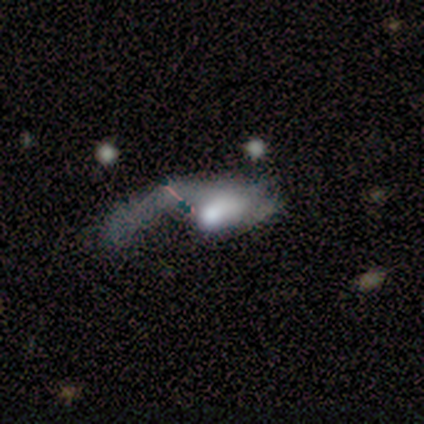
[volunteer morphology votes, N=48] Smooth or featured?
  - featured or disk: 67% *
  - smooth: 23%
  - star or artifact: 10%
Edge-on disk?
  - no: 100% *
  - yes: 0%
Bar?
  - no: 81% *
  - weak: 16%
  - strong: 3%
Spiral arms?
  - yes: 53% *
  - no: 47%
Spiral winding?
  - loose: 53% *
  - medium: 29%
  - tight: 18%
Spiral arm count?
  - 1: 88% *
  - 2: 12%
  - 3: 0%
  - 4: 0%
  - more than 4: 0%
  - can't tell: 0%
Bulge size?
  - large: 38% * (tied)
  - moderate: 38% * (tied)
  - small: 19%
  - dominant: 6%
  - none: 0%
Merging?
  - major disturbance: 72% *
  - none: 19%
  - merger: 7%
  - minor disturbance: 2%